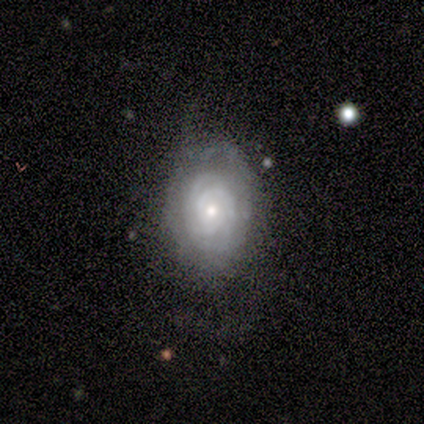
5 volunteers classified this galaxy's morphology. This appears to be a featured or disk galaxy (100%) with no bar (80%), 2 (25%, tied with 3, 4 and can't tell) tight (100%) spiral arms (80%) and a small central bulge (80%). Merging: minor disturbance (80%).